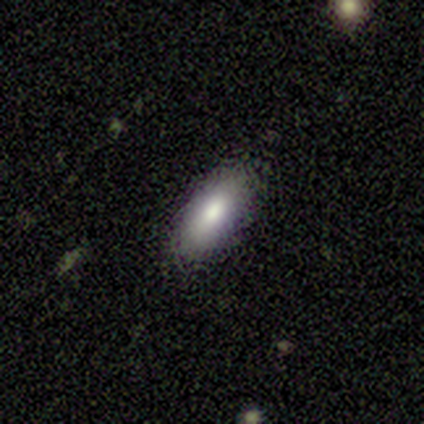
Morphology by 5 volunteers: Q: Smooth or featured?
A: smooth (80%); runner-up: featured or disk (20%)
Q: How rounded?
A: in between (50%); tied with: cigar-shaped (50%)
Q: Merging?
A: none (80%); runner-up: minor disturbance (20%)